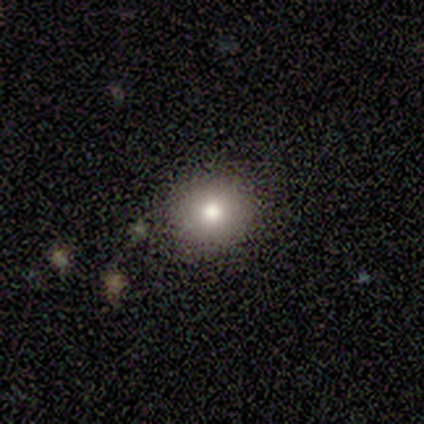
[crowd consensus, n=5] This appears to be a smooth galaxy with no disk features (60%) that is round (100%). Merging: none (100%).